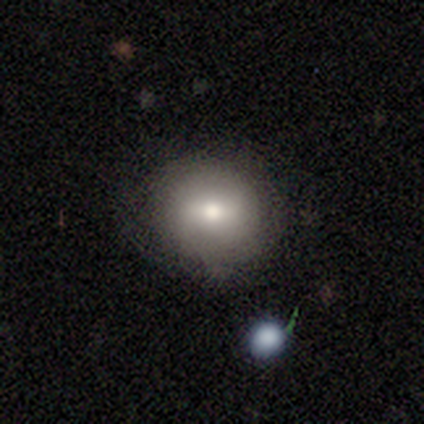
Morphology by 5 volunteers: Smooth or featured? smooth (40%, tied with featured or disk)
How rounded? round (100%)
Merging? none (50%, tied with minor disturbance)